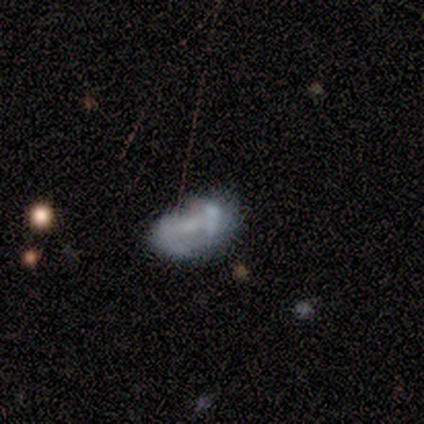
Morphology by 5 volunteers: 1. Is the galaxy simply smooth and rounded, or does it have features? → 60% smooth, 40% featured or disk, 0% star or artifact.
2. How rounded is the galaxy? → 100% in between, 0% round, 0% cigar-shaped.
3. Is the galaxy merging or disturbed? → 60% none, 40% major disturbance, 0% minor disturbance, 0% merger.